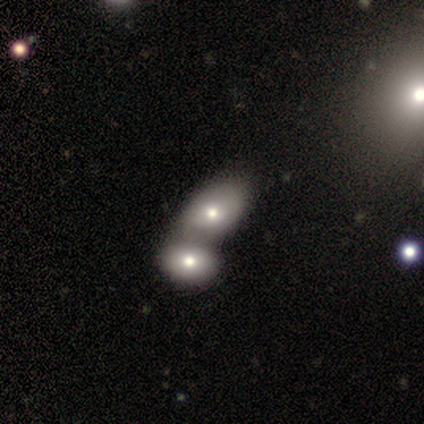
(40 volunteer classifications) smooth 65%, featured or disk 25%, star or artifact 10%. Down the decision tree: how rounded — in between (77%); merging — merger (72%).